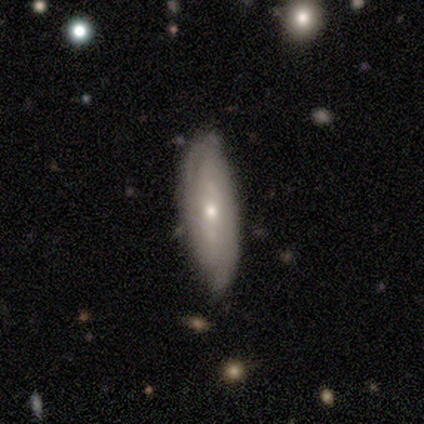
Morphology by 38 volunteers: featured or disk 66%, smooth 34%, star or artifact 0%. Down the decision tree: edge-on disk — no (68%); bar — no (59%); spiral arms — yes (76%); spiral arm count — can't tell (54%); spiral winding — tight (69%); bulge size — small (59%); merging — none (68%).